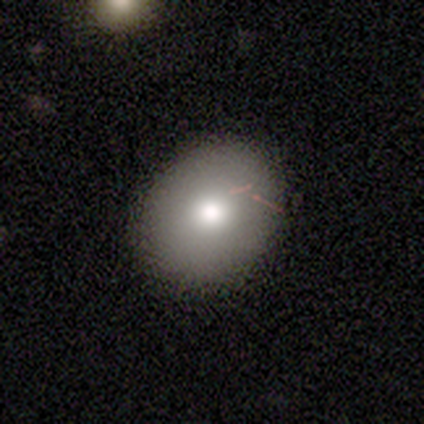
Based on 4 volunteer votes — smooth-or-featured: smooth: 100% | featured or disk: 0% | star or artifact: 0%
  how-rounded: round: 75% | in between: 25% | cigar-shaped: 0%
  merging: none: 100% | minor disturbance: 0% | major disturbance: 0% | merger: 0%